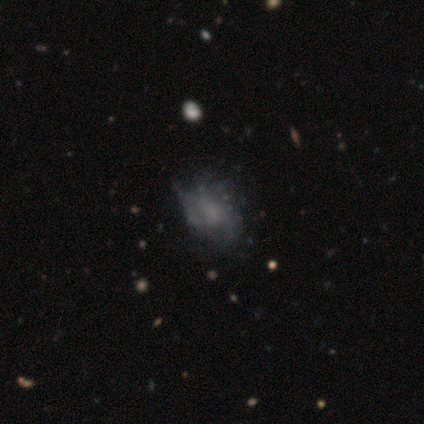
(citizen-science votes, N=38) Smooth or featured? 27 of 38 (71%) said featured or disk. Edge-on disk? 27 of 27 (100%) said no. Bar? 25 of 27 (93%) said no. Spiral arms? 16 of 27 (59%) said yes. Spiral winding? 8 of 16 (50%) said loose. Spiral arm count? 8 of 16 (50%) said can't tell. Bulge size? 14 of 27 (52%) said none. Merging? 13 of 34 (38%) said none.